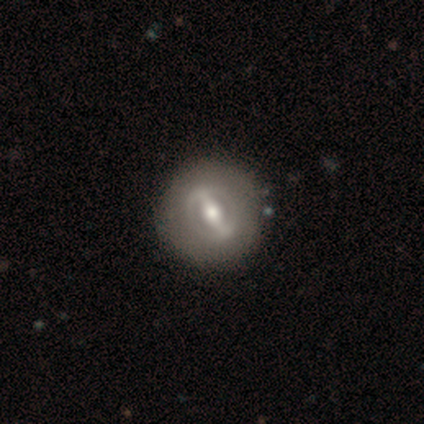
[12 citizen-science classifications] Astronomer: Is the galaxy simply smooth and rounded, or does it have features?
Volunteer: featured or disk — 67%.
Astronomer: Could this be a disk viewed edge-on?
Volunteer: no — 100%.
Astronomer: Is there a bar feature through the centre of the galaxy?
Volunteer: strong — 75%.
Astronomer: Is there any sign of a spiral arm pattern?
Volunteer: no — 62%.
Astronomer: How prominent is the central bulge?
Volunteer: moderate — 88%.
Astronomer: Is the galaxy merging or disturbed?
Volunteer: none — 100%.